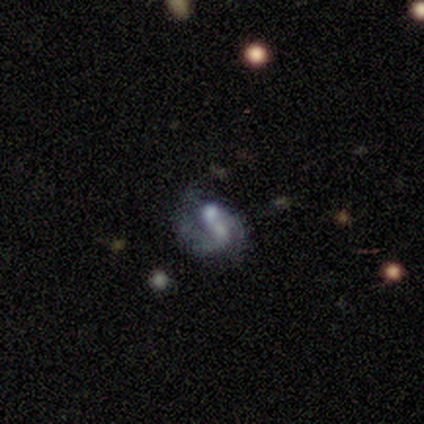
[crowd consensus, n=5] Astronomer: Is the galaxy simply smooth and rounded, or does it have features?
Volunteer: featured or disk — 60%.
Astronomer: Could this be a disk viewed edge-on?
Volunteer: no — 100%.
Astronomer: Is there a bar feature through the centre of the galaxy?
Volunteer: no — 100%.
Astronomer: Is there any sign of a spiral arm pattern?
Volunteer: yes — 67%.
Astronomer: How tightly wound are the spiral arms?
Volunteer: medium — 50%, tied with loose at 50%.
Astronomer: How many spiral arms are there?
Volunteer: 2 — 100%.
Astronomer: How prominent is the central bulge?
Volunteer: moderate — 100%.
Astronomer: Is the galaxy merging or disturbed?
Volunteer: merger — 50%.